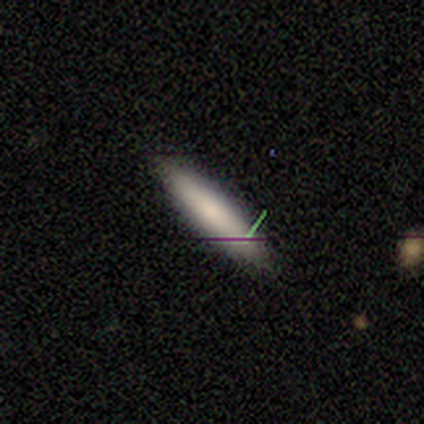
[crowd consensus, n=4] A smooth galaxy with no disk features (50%, tied with featured or disk) that is cigar-shaped (100%). Merging: none (100%).